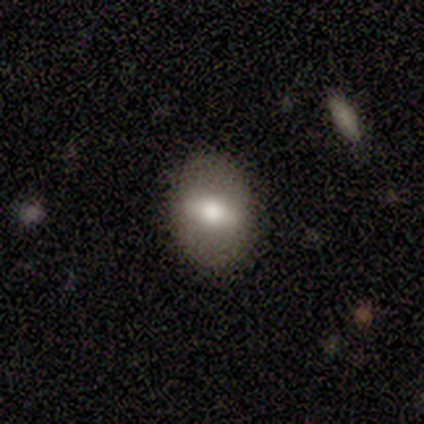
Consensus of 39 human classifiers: Overall: featured or disk (49%; smooth 44%). Edge-on disk: no (79%). Bar: strong (60%; weak 27%). Spiral arms: no (87%). Bulge size: moderate (67%; large 27%). Merging: none (92%).